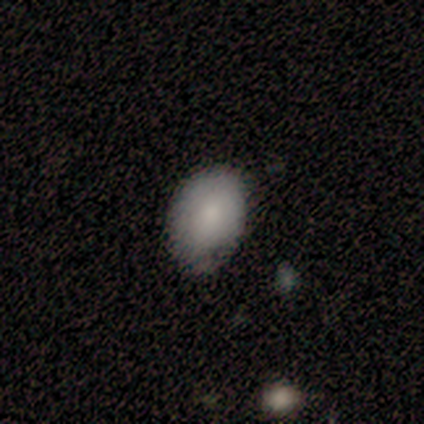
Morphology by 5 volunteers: A smooth galaxy with no disk features (100%) that is in between round and cigar-shaped (100%). Merging: none (60%).